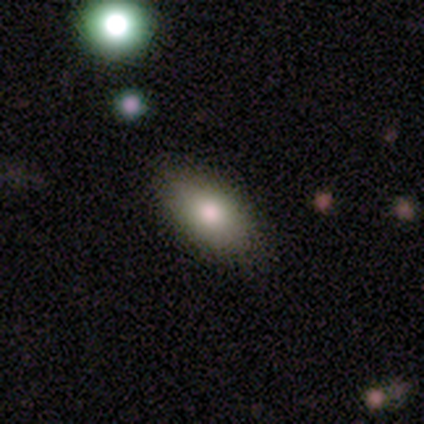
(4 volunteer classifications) Volunteers were most divided on "smooth or featured": smooth: 75%, featured or disk: 25%, star or artifact: 0%. More confident: how rounded — in between (100%); merging — none (75%).